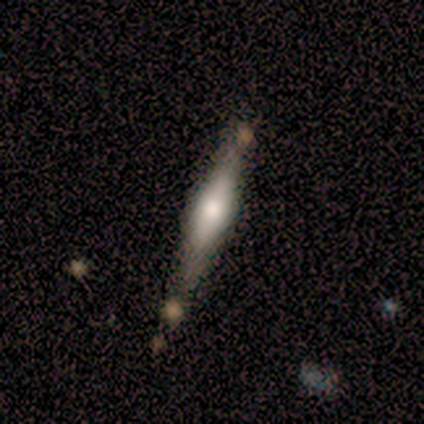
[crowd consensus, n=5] A featured or disk galaxy (80%) viewed edge-on (75%) with a rounded central bulge (100%).

Vote fractions:
- Smooth or featured? featured or disk: 80% / star or artifact: 20% / smooth: 0%
- Edge-on disk? yes: 75% / no: 25%
- Edge-on bulge? rounded: 100% / boxy: 0% / none: 0%
- Merging? none: 75% / merger: 25% / minor disturbance: 0% / major disturbance: 0%